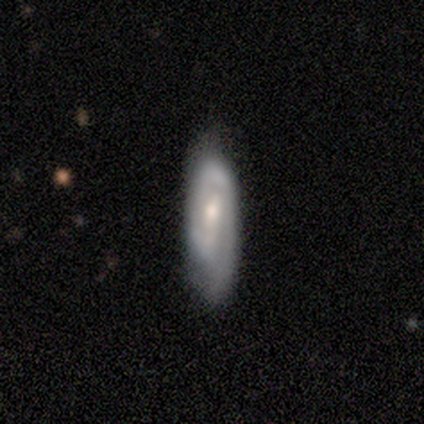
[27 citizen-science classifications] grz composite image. It shows a featured or disk galaxy (63%) with a weak bar (50%), 2 (46%) tight (54%) spiral arms (93%) and a small central bulge (57%). Merging: none (63%).